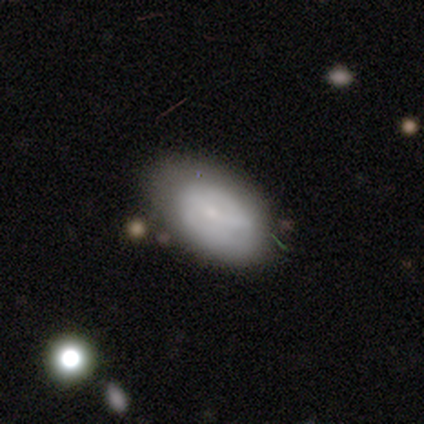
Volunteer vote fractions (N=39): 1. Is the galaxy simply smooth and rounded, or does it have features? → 72% smooth, 23% featured or disk, 5% star or artifact.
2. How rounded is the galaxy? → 86% in between, 14% round, 0% cigar-shaped.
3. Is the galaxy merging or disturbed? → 65% none, 24% minor disturbance, 8% major disturbance, 3% merger.